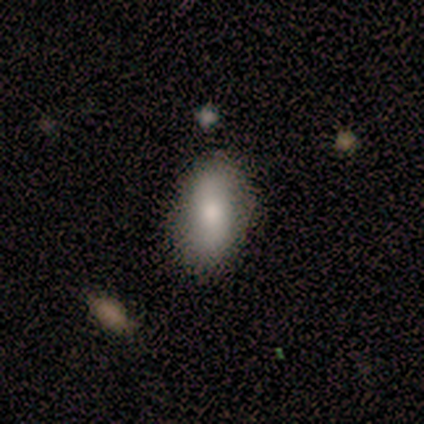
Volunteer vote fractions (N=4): Overall: smooth (100%). How rounded: in between (75%). Merging: none (50%, tied with minor disturbance).